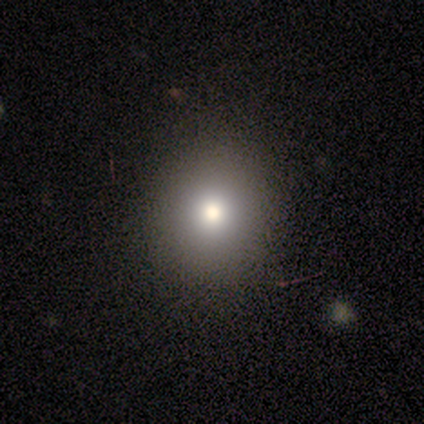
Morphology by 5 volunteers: Volunteers were most divided on "smooth or featured": smooth: 60%, featured or disk: 40%, star or artifact: 0%. More confident: how rounded — round (100%); merging — none (100%).